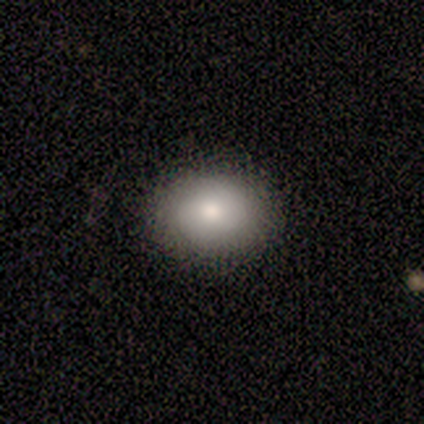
A smooth galaxy with no disk features (67%) that is round (50%, tied with in between).

Vote fractions:
- Smooth or featured? smooth: 67% / featured or disk: 33% / star or artifact: 0%
- How rounded? round: 50% (tied) / in between: 50% (tied) / cigar-shaped: 0%
- Merging? none: 100% / minor disturbance: 0% / major disturbance: 0% / merger: 0%